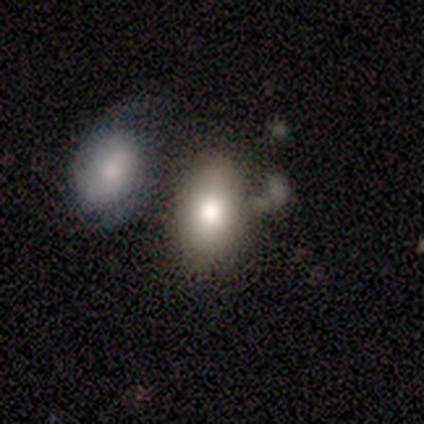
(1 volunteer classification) A smooth galaxy with no disk features (100%) that is in between round and cigar-shaped (100%). Merging: minor disturbance (100%).